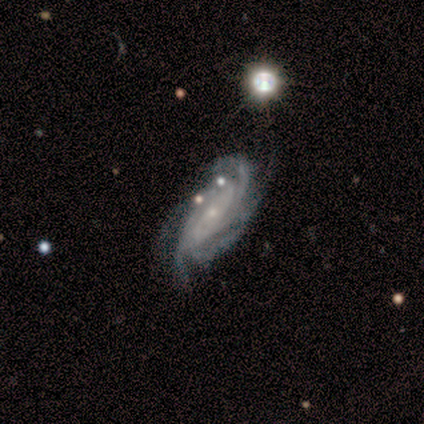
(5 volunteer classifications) Smooth or featured? 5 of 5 (100%) said featured or disk. Edge-on disk? 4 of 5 (80%) said no. Bar? 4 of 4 (100%) said no. Spiral arms? 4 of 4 (100%) said yes. Spiral winding? 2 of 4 (50%, tied with medium) said tight. Spiral arm count? 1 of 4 (25%, tied with 4, more than 4 and can't tell) said 3. Bulge size? 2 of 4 (50%) said small. Merging? 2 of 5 (40%, tied with merger) said none.